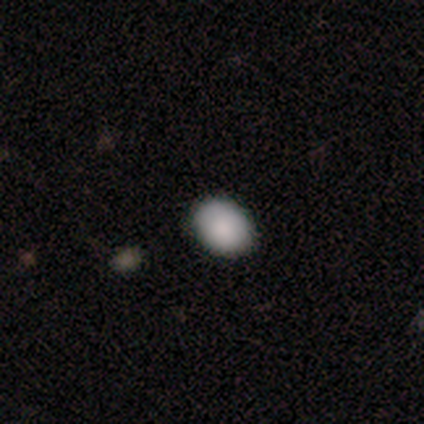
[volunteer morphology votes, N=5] smooth 100%, featured or disk 0%, star or artifact 0%. Down the decision tree: how rounded — in between (80%); merging — none (100%).